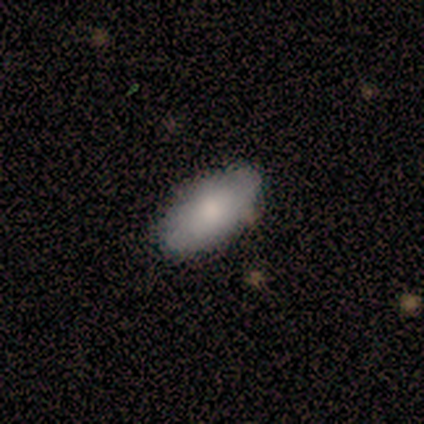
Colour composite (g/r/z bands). It shows a smooth galaxy with no disk features (100%) that is in between round and cigar-shaped (100%). Merging: none (50%, tied with minor disturbance).